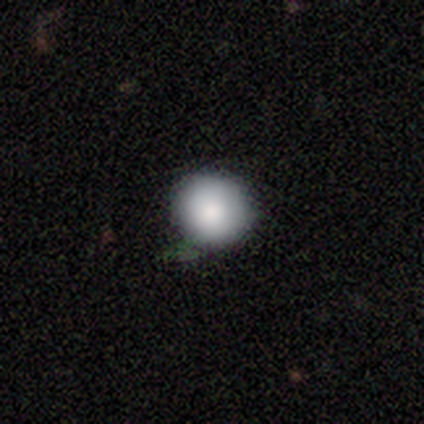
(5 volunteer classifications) Morphology: type=smooth (80%); roundness=round (100%); merging=none (60%).